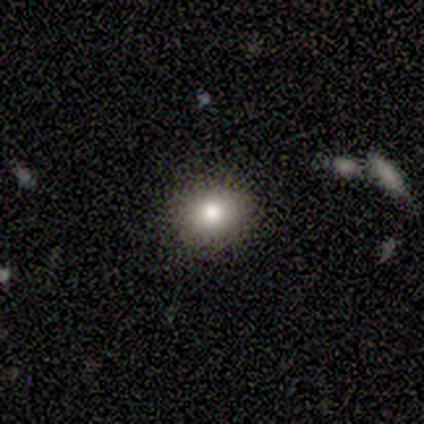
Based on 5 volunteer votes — This is clearly a smooth galaxy (100%). How rounded: clearly round (80%). Merging: clearly none (80%).